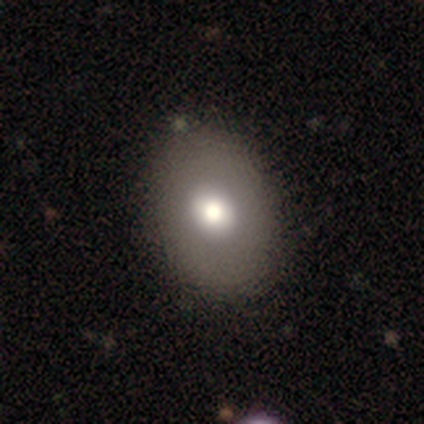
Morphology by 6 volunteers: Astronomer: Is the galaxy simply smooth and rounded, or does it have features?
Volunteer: smooth — 50%, tied with featured or disk at 50%.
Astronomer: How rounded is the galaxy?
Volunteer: round — 67%.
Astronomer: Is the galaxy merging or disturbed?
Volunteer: none — 100%.